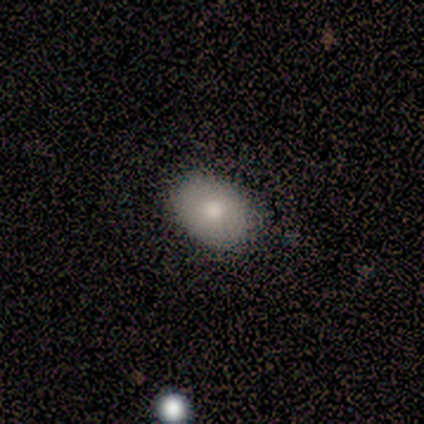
Overall: smooth (80%). How rounded: in between (75%). Merging: none (80%).